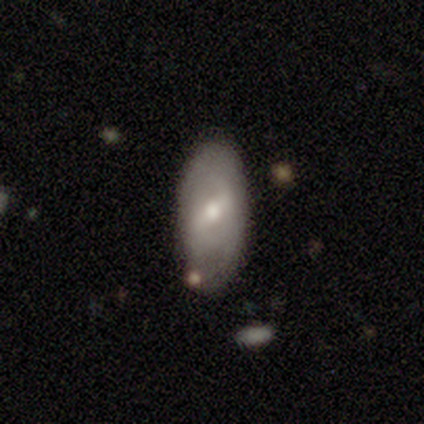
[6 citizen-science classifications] smooth-or-featured: featured or disk: 67% | smooth: 33% | star or artifact: 0%
  disk-edge-on: no: 100% | yes: 0%
    bar: strong: 50% | weak: 25% | no: 25%
    has-spiral-arms: no: 75% | yes: 25%
    bulge-size: moderate: 50% | small: 25% | none: 25% | dominant: 0% | large: 0%
  merging: none: 100% | minor disturbance: 0% | major disturbance: 0% | merger: 0%